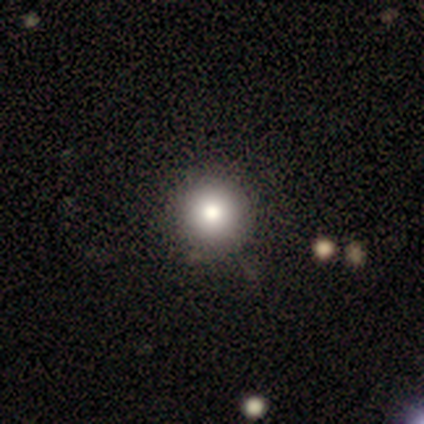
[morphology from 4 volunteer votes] Volunteers were most divided on "smooth or featured": featured or disk: 75%, smooth: 25%, star or artifact: 0%. More confident: edge-on disk — no (100%); bar — no (100%); spiral arms — no (100%); bulge size — moderate (100%); merging — none (100%).